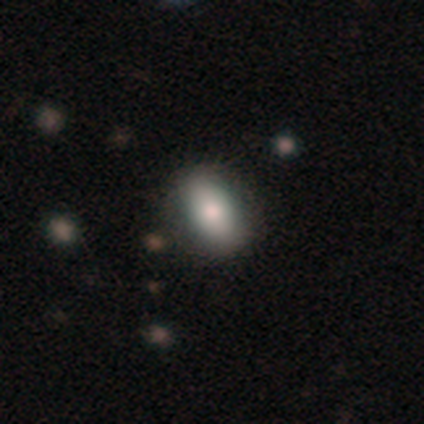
Q: Smooth or featured?
A: smooth (74%); runner-up: featured or disk (19%)
Q: How rounded?
A: in between (91%); runner-up: round (8%)
Q: Merging?
A: none (75%); runner-up: minor disturbance (16%)